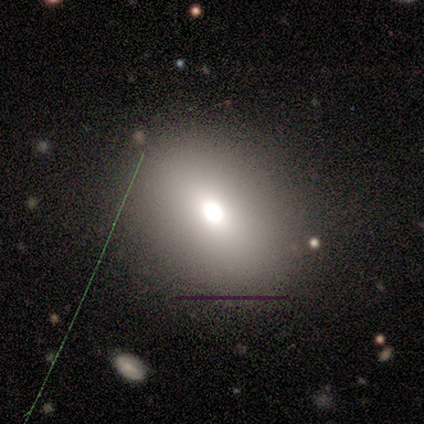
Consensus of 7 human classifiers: This is likely a smooth galaxy (71%). How rounded: clearly in between (100%). Merging: likely none (60%).